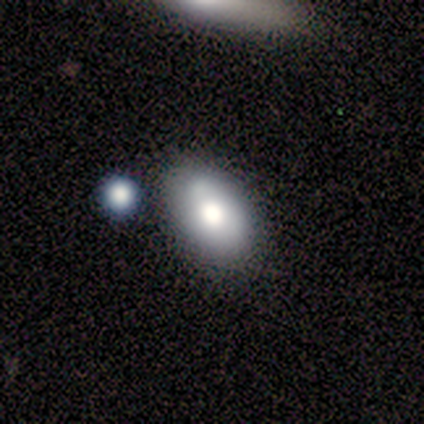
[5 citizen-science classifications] Volunteers were most divided on "merging" (2-way tie): none: 40%, minor disturbance: 40%, merger: 20%, major disturbance: 0%. More confident: smooth or featured — smooth (100%); how rounded — in between (100%).